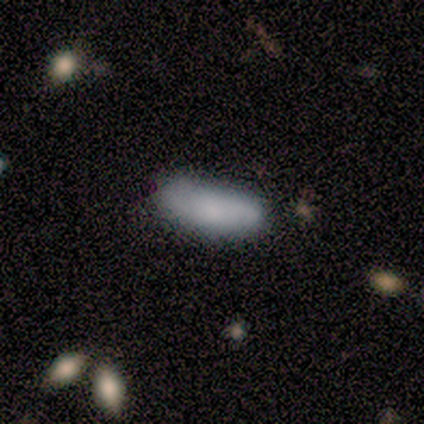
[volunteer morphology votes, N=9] Q: Smooth or featured?
A: smooth (100%)
Q: How rounded?
A: in between (78%); runner-up: cigar-shaped (22%)
Q: Merging?
A: none (89%); runner-up: minor disturbance (11%)